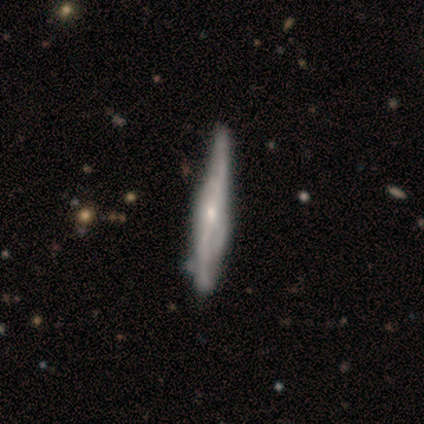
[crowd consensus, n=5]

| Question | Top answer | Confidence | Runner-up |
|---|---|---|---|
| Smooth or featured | smooth | 60% | featured or disk (40%) |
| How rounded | cigar-shaped | 100% | — |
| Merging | minor disturbance | 60% | none (40%) |